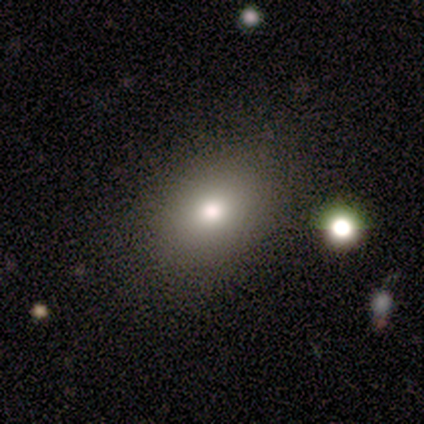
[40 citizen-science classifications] A smooth galaxy with no disk features (60%) that is in between round and cigar-shaped (62%).

Vote fractions:
- Smooth or featured? smooth: 60% / featured or disk: 20% / star or artifact: 20%
- How rounded? in between: 62% / round: 33% / cigar-shaped: 4%
- Merging? none: 88% / minor disturbance: 9% / merger: 3% / major disturbance: 0%